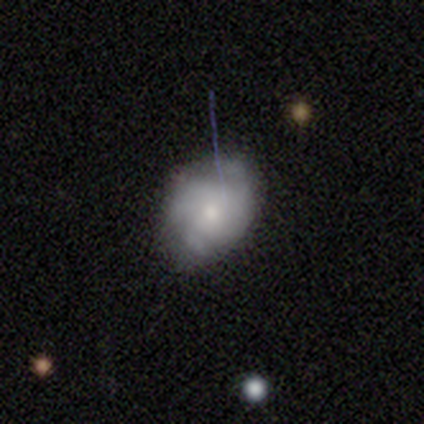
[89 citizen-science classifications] Smooth or featured?
  - featured or disk: 46% *
  - smooth: 43%
  - star or artifact: 11%
Edge-on disk?
  - no: 93% *
  - yes: 7%
Bar?
  - no: 82% *
  - weak: 13%
  - strong: 5%
Spiral arms?
  - yes: 58% *
  - no: 42%
Spiral winding?
  - tight: 59% *
  - loose: 23%
  - medium: 18%
Spiral arm count?
  - 3: 41% *
  - can't tell: 27%
  - 2: 23%
  - 1: 5%
  - 4: 5%
  - more than 4: 0%
Bulge size?
  - small: 61% *
  - moderate: 37%
  - dominant: 3%
  - large: 0%
  - none: 0%
Merging?
  - none: 46% *
  - minor disturbance: 41%
  - major disturbance: 11%
  - merger: 3%